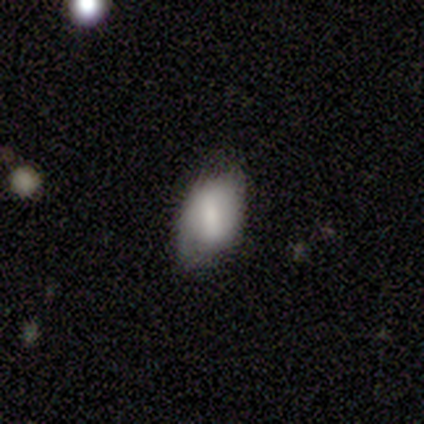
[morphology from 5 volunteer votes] A featured or disk galaxy (60%) with a weak bar (67%), no spiral arms (67%) and no central bulge (67%). Merging: none (60%).